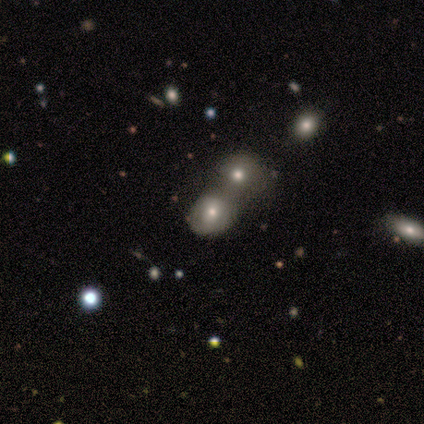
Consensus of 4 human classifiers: This is likely a smooth galaxy (75%). How rounded: marginally round (33%, tied with in between and cigar-shaped). Merging: likely merger (67%).